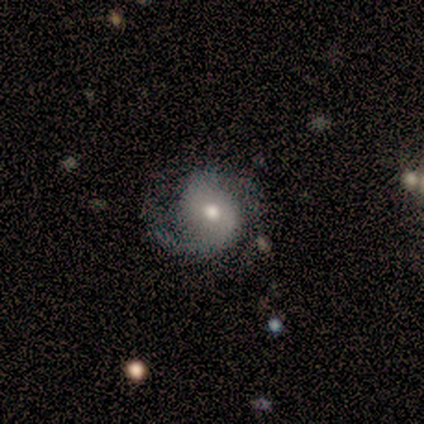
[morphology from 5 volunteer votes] Overall: featured or disk (80%). Edge-on disk: no (100%). Bar: no (75%). Spiral arms: yes (75%). Spiral arm count: 2 (67%; can't tell 33%). Spiral winding: medium (67%; loose 33%). Bulge size: moderate (50%; dominant 25%). Merging: none (80%).